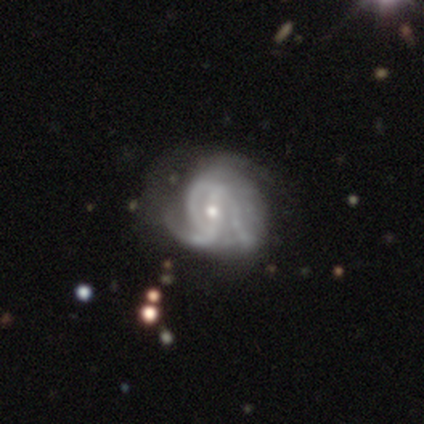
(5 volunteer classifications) Overall: featured or disk (100%). Edge-on disk: no (100%). Bar: weak (80%). Spiral arms: yes (100%). Spiral arm count: 3 (60%; 2 20%). Spiral winding: medium (40%, tied with loose). Bulge size: small (60%; large 20%). Merging: none (40%, tied with major disturbance).